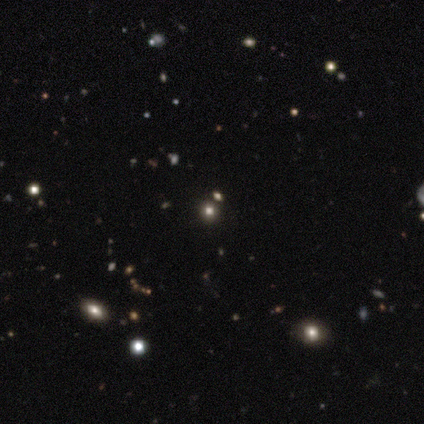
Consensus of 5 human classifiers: This is likely a star or artifact rather than a galaxy (60%).